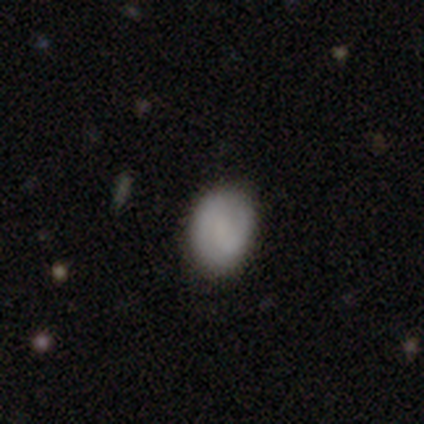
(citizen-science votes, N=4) A smooth galaxy with no disk features (50%, tied with star or artifact) that is in between round and cigar-shaped (100%). Merging: none (50%, tied with minor disturbance).